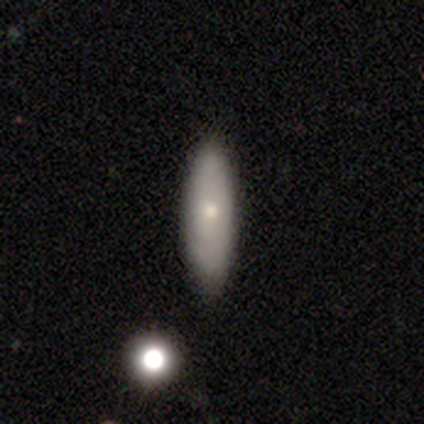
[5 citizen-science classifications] A featured or disk galaxy (60%) with no bar (100%), medium (100%) spiral arms (50%, tied with no) and a moderate central bulge (100%). Merging: none (100%).